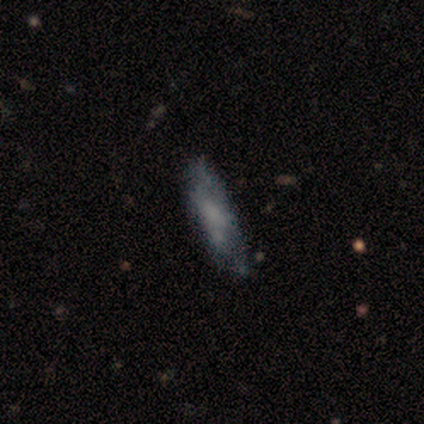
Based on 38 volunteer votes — Q: Smooth or featured?
A: smooth (63%); runner-up: featured or disk (29%)
Q: How rounded?
A: cigar-shaped (79%); runner-up: in between (21%)
Q: Merging?
A: none (69%); runner-up: minor disturbance (20%)